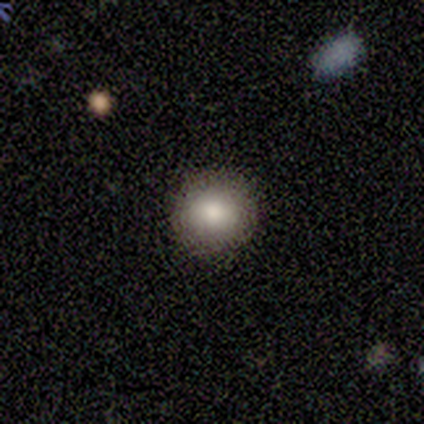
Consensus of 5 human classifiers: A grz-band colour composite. It shows a smooth galaxy with no disk features (100%) that is round (100%). Merging: none (100%).